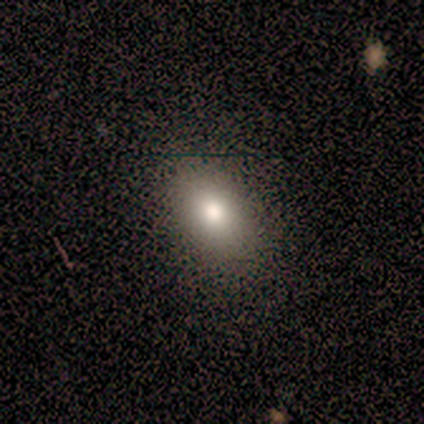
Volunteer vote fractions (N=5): smooth-or-featured: smooth: 80% | featured or disk: 20% | star or artifact: 0%
  how-rounded: in between: 75% | round: 25% | cigar-shaped: 0%
  merging: none: 100% | minor disturbance: 0% | major disturbance: 0% | merger: 0%